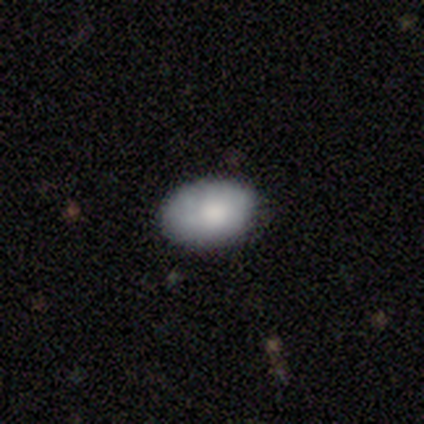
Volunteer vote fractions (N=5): Q: Smooth or featured?
A: featured or disk (60%); runner-up: smooth (40%)
Q: Edge-on disk?
A: no (100%)
Q: Bar?
A: no (100%)
Q: Spiral arms?
A: no (100%)
Q: Bulge size?
A: moderate (100%)
Q: Merging?
A: none (80%); runner-up: minor disturbance (20%)